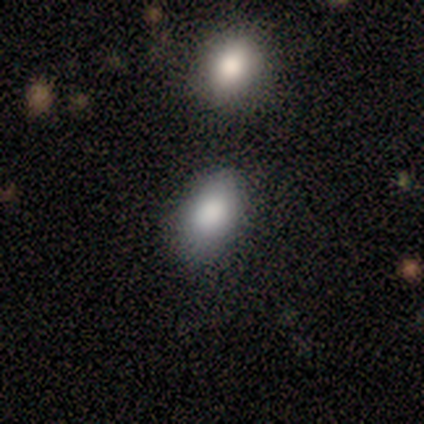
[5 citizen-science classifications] smooth 100%, featured or disk 0%, star or artifact 0%. Down the decision tree: how rounded — in between (100%); merging — none (80%).